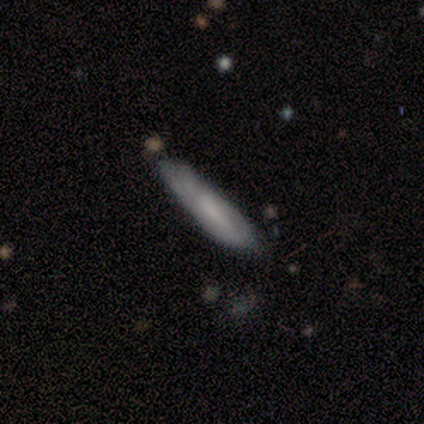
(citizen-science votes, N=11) This is likely a smooth galaxy (64%). How rounded: clearly cigar-shaped (100%). Merging: possibly none (55%).